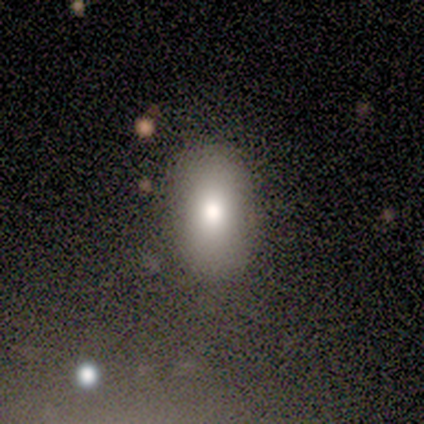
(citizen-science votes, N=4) smooth 75%, star or artifact 25%, featured or disk 0%. Down the decision tree: how rounded — in between (67%); merging — none (100%).